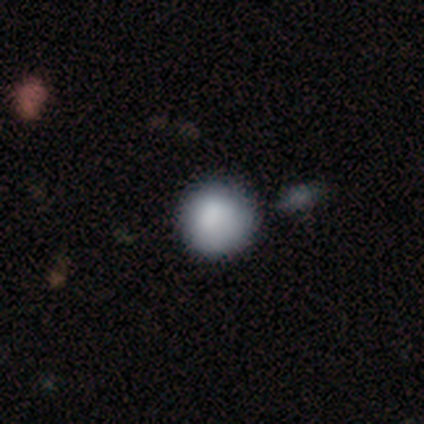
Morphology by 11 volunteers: Smooth or featured? smooth (100%)
How rounded? round (100%)
Merging? none (91%)